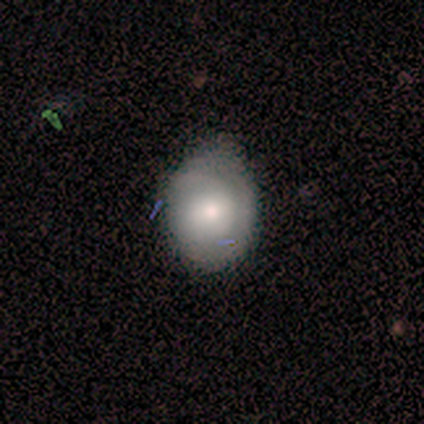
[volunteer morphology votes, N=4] Volunteers were most divided on "how rounded": round: 67%, in between: 33%, cigar-shaped: 0%. More confident: smooth or featured — smooth (75%); merging — minor disturbance (67%).